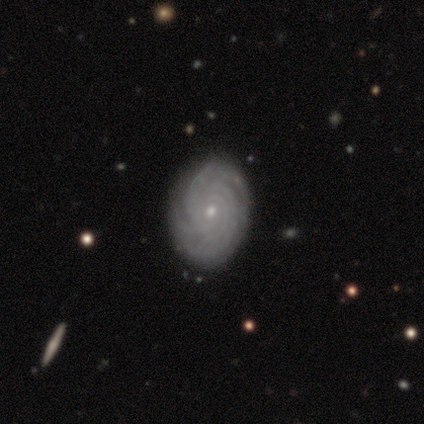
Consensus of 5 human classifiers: smooth_or_featured: featured or disk (p=1.00)
disk_edge_on: no (p=1.00)
bar: no (p=0.80) [alt: weak p=0.20]
has_spiral_arms: yes (p=1.00)
spiral_winding: tight (p=0.80) [alt: medium p=0.20]
spiral_arm_count: 4 (p=0.40) [tied with: can't tell p=0.40]
bulge_size: small (p=0.60) [alt: moderate p=0.40]
merging: none (p=1.00)